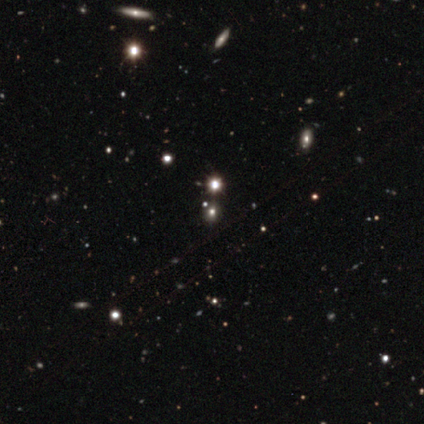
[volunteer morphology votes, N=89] Smooth or featured? star or artifact (71%)